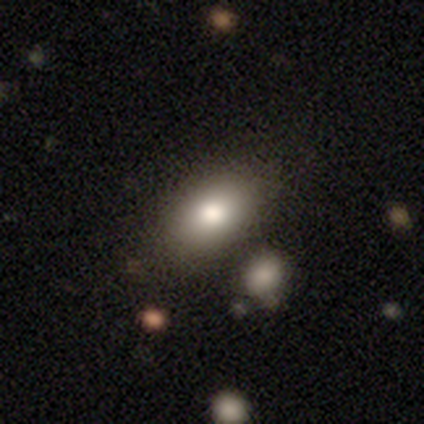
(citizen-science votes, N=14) A smooth galaxy with no disk features (79%) that is in between round and cigar-shaped (73%). Merging: none (77%).